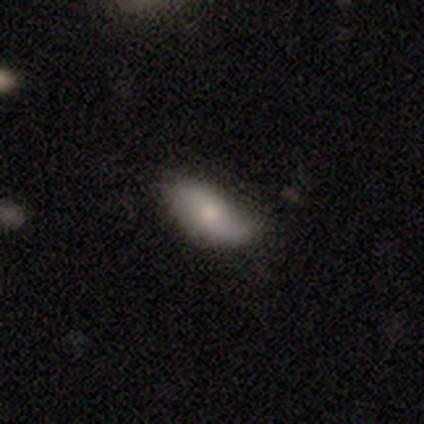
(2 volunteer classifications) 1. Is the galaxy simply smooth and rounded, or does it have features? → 50% smooth (tied), 50% star or artifact (tied), 0% featured or disk.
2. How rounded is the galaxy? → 100% in between, 0% round, 0% cigar-shaped.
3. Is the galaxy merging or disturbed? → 100% minor disturbance, 0% none, 0% major disturbance, 0% merger.